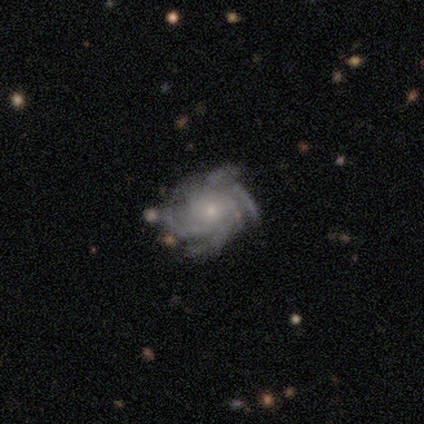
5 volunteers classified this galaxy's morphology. A featured or disk galaxy (100%) with no bar (80%), 4 (40%) tight (100%) spiral arms (100%) and a small central bulge (80%).

Vote fractions:
- Smooth or featured? featured or disk: 100% / smooth: 0% / star or artifact: 0%
- Edge-on disk? no: 100% / yes: 0%
- Bar? no: 80% / weak: 20% / strong: 0%
- Spiral arms? yes: 100% / no: 0%
- Spiral winding? tight: 100% / medium: 0% / loose: 0%
- Spiral arm count? 4: 40% / 3: 20% / more than 4: 20% / can't tell: 20% / 1: 0% / 2: 0%
- Bulge size? small: 80% / moderate: 20% / dominant: 0% / large: 0% / none: 0%
- Merging? none: 80% / minor disturbance: 20% / major disturbance: 0% / merger: 0%